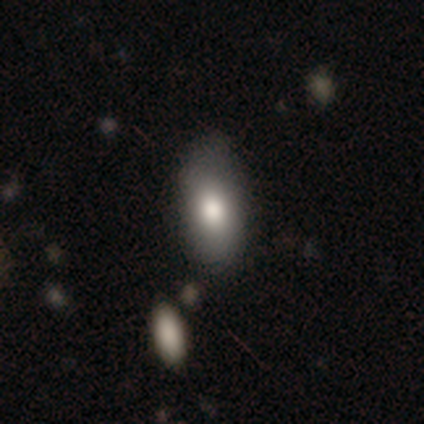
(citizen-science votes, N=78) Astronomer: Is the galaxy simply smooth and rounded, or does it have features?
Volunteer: smooth — 82%.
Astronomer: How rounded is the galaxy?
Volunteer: in between — 95%.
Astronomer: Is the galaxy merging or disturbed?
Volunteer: none — 40%.